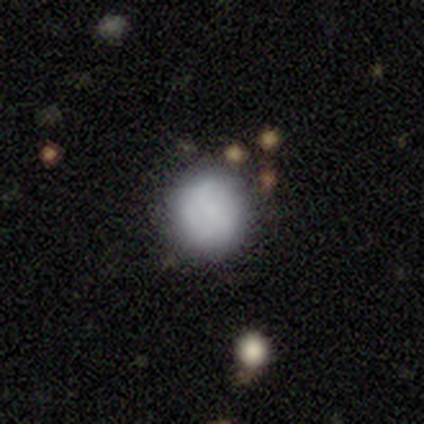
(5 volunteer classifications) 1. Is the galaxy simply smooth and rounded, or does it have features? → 80% smooth, 20% star or artifact, 0% featured or disk.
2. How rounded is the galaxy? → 75% round, 25% in between, 0% cigar-shaped.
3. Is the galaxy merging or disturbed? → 100% none, 0% minor disturbance, 0% major disturbance, 0% merger.